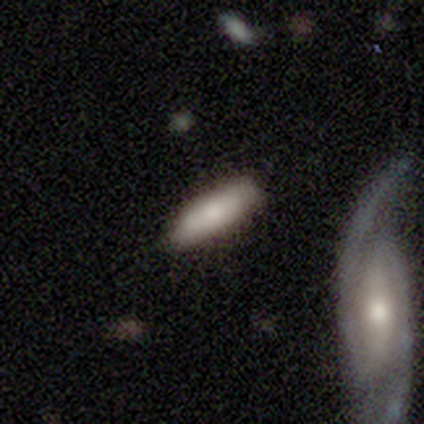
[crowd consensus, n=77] Morphology: type=smooth (71%); roundness=in between (62%); merging=none (49%).